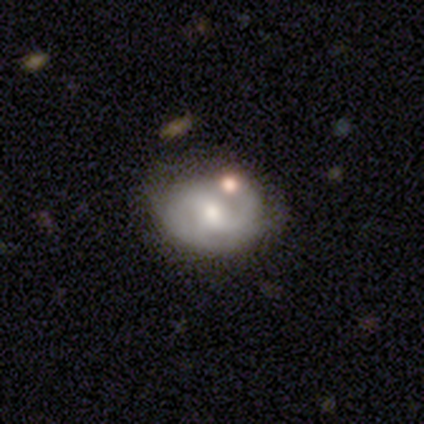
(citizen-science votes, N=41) Smooth or featured? featured or disk (73%)
Edge-on disk? no (100%)
Bar? weak (47%)
Spiral arms? yes (93%)
Spiral winding? tight (39%, tied with medium)
Spiral arm count? 2 (64%)
Bulge size? moderate (53%)
Merging? none (53%)